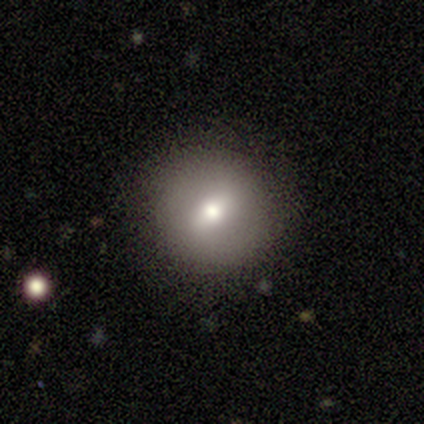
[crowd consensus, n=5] Smooth or featured?
  - smooth: 40% * (tied)
  - featured or disk: 40% * (tied)
  - star or artifact: 20%
How rounded?
  - round: 100% *
  - in between: 0%
  - cigar-shaped: 0%
Merging?
  - none: 75% *
  - merger: 25%
  - minor disturbance: 0%
  - major disturbance: 0%